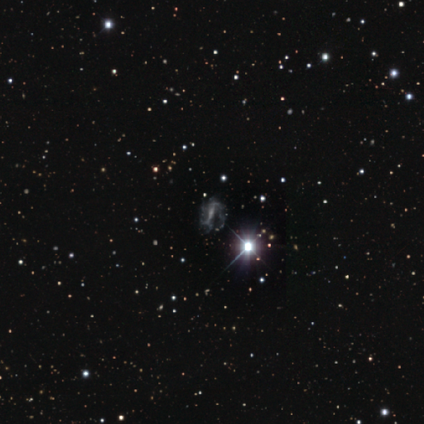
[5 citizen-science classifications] Overall: featured or disk (100%). Edge-on disk: no (100%). Bar: strong (80%). Spiral arms: yes (80%). Spiral arm count: 2 (50%, tied with can't tell). Spiral winding: loose (50%; tight 25%). Bulge size: moderate (40%, tied with small). Merging: major disturbance (60%; none 20%).